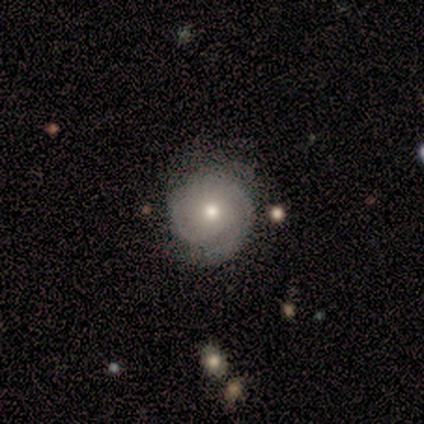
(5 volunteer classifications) This appears to be a featured or disk galaxy (60%) with no bar (100%), 2 (33%, tied with 3 and can't tell) tight (33%, tied with medium and loose) spiral arms (100%) and a small central bulge (67%). Merging: none (75%).